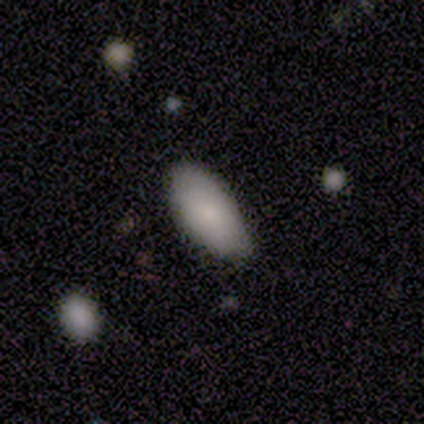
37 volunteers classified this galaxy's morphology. type=smooth (76%); roundness=in between (93%); merging=none (61%).